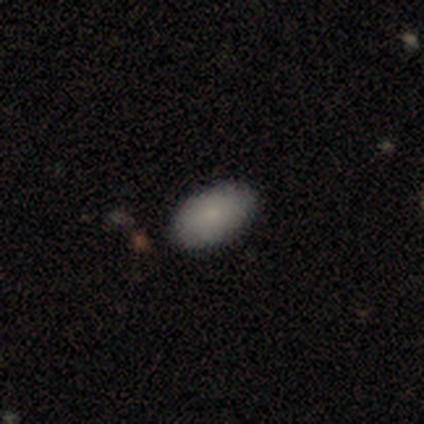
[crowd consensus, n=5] Q: Smooth or featured?
A: smooth (100%)
Q: How rounded?
A: in between (100%)
Q: Merging?
A: none (100%)